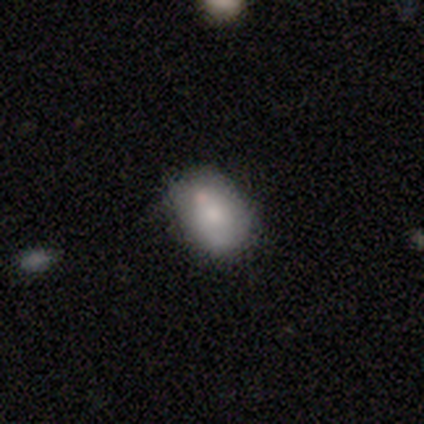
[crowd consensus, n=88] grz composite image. It shows a smooth galaxy with no disk features (72%) that is in between round and cigar-shaped (94%). Merging: none (64%).